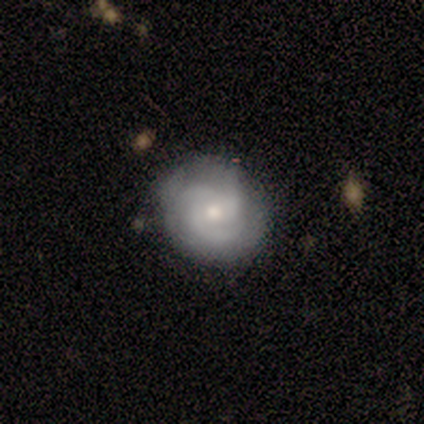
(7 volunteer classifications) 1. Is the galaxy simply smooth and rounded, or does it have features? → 100% featured or disk, 0% smooth, 0% star or artifact.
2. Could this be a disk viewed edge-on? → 100% no, 0% yes.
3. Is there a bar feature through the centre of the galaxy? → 100% no, 0% strong, 0% weak.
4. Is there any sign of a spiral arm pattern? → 100% yes, 0% no.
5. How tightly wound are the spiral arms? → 86% tight, 14% medium, 0% loose.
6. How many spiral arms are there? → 100% 3, 0% 1, 0% 2, 0% 4, 0% more than 4, 0% can't tell.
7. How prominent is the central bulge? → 57% small, 43% moderate, 0% dominant, 0% large, 0% none.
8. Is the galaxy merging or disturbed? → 86% none, 14% minor disturbance, 0% major disturbance, 0% merger.